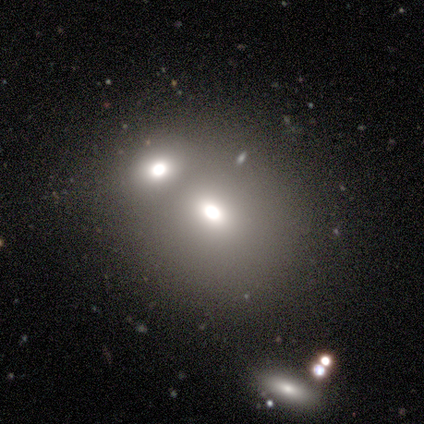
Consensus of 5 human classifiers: Volunteers were most divided on "merging": merger: 60%, none: 40%, minor disturbance: 0%, major disturbance: 0%. More confident: smooth or featured — smooth (80%); how rounded — round (75%).